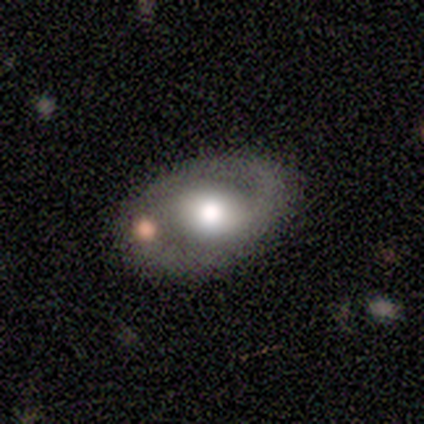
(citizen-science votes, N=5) This is clearly a featured or disk galaxy (100%). It is clearly not viewed edge-on (100%). Bar: clearly no (80%). Spiral arm pattern: likely yes (60%). Spiral arm count: likely 2 (67%). Spiral winding: clearly medium (100%). Central bulge: likely moderate (60%). Merging: clearly none (80%).